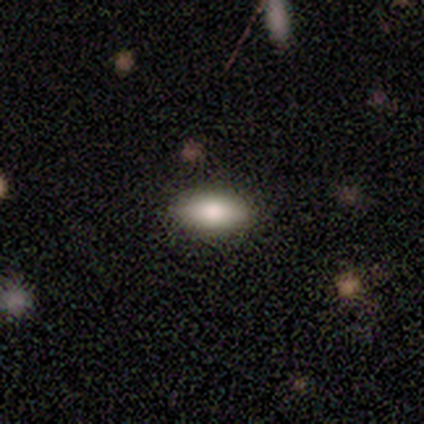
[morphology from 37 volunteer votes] This is clearly a smooth galaxy (84%). How rounded: clearly in between (94%). Merging: clearly none (83%).